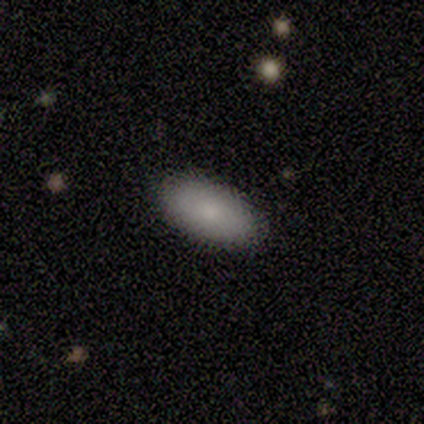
Q: Smooth or featured?
A: smooth (60%); runner-up: featured or disk (20%)
Q: How rounded?
A: in between (100%)
Q: Merging?
A: none (100%)